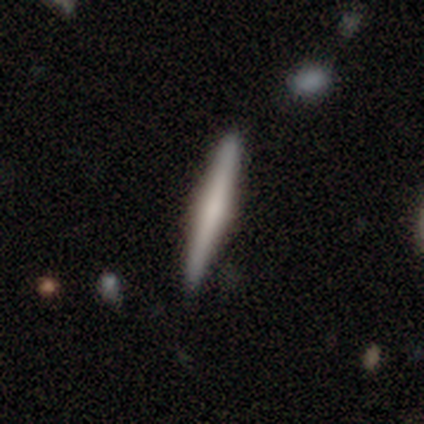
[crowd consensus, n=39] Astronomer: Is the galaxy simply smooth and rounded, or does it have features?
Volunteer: smooth — 51% (runner-up: featured or disk, 49%).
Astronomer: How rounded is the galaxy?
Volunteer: cigar-shaped — 95%.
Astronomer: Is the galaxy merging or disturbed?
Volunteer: none — 90%.